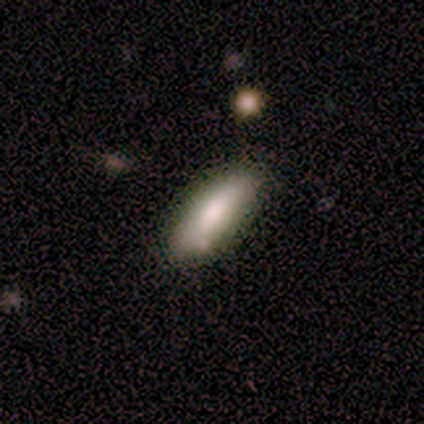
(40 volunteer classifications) Overall: smooth (78%). How rounded: cigar-shaped (55%; in between 45%). Merging: none (76%).